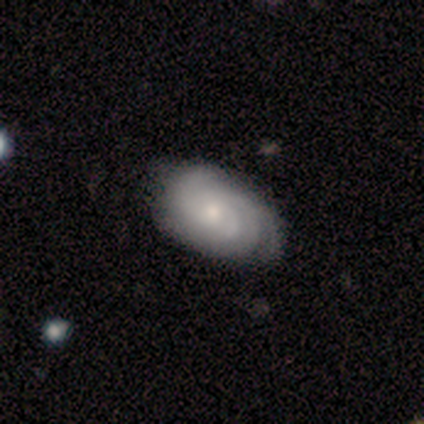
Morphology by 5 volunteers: Smooth or featured: featured or disk — 80% (smooth — 20%)
Edge-on disk: no — 100%
Bar: weak — 50% (tied with no — 50%)
Spiral arms: yes — 100%
Spiral winding: tight — 100%
Spiral arm count: can't tell — 50% (3 — 25%)
Bulge size: small — 100%
Merging: none — 100%